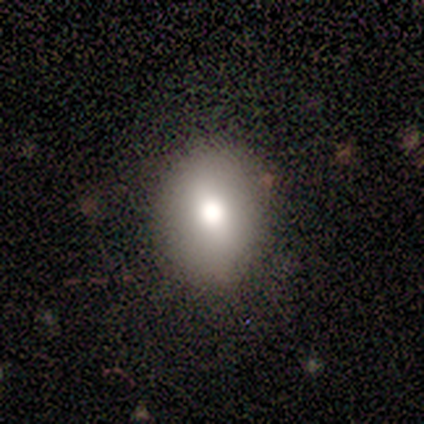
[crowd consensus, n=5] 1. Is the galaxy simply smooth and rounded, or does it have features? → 100% smooth, 0% featured or disk, 0% star or artifact.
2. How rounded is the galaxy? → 60% in between, 40% round, 0% cigar-shaped.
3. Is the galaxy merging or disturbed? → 100% none, 0% minor disturbance, 0% major disturbance, 0% merger.